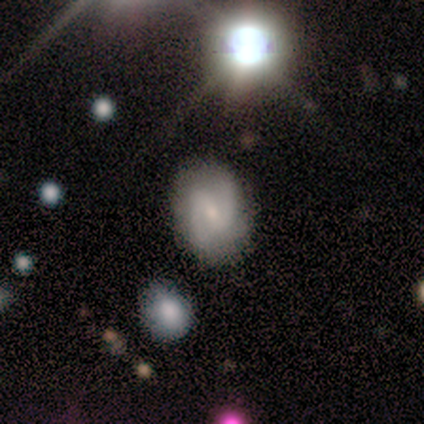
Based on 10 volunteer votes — A smooth galaxy with no disk features (50%) that is in between round and cigar-shaped (100%).

Vote fractions:
- Smooth or featured? smooth: 50% / featured or disk: 40% / star or artifact: 10%
- How rounded? in between: 100% / round: 0% / cigar-shaped: 0%
- Merging? none: 67% / major disturbance: 22% / minor disturbance: 11% / merger: 0%